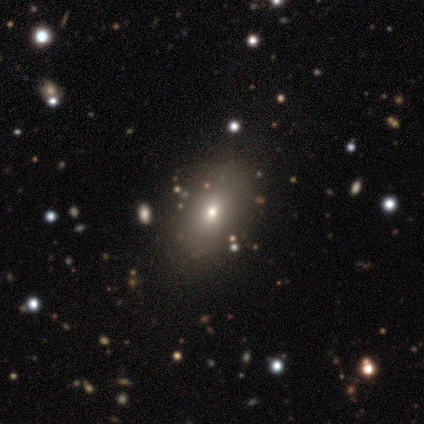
Overall: smooth (60%; star or artifact 40%). How rounded: in between (100%). Merging: none (100%).